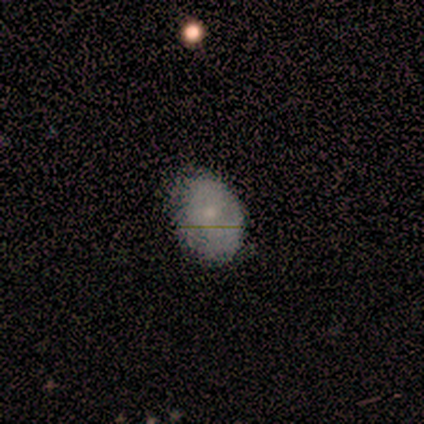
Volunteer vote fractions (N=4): Smooth or featured?
  - smooth: 100% *
  - featured or disk: 0%
  - star or artifact: 0%
How rounded?
  - in between: 75% *
  - round: 25%
  - cigar-shaped: 0%
Merging?
  - none: 50% *
  - minor disturbance: 25%
  - major disturbance: 25%
  - merger: 0%